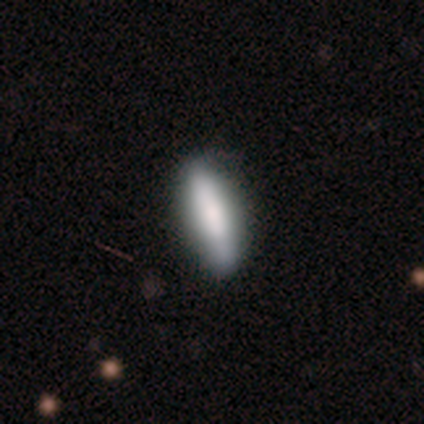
Q: Smooth or featured?
A: smooth (67%); runner-up: featured or disk (17%)
Q: How rounded?
A: in between (50%); tied with: cigar-shaped (50%)
Q: Merging?
A: none (100%)